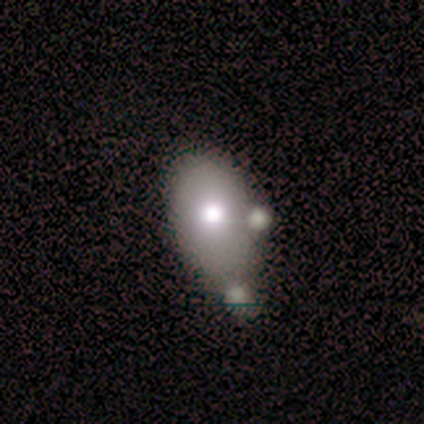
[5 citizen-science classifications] Smooth or featured? 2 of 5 (40%, tied with featured or disk) said smooth. How rounded? 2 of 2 (100%) said in between. Merging? 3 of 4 (75%) said none.